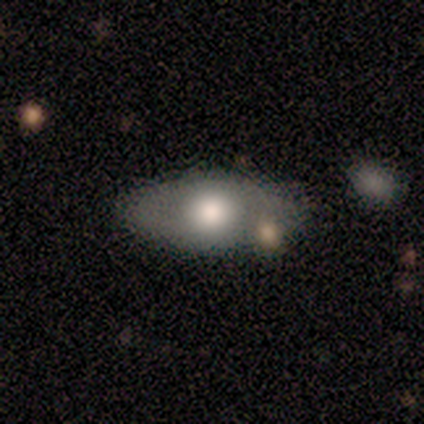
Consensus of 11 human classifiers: A smooth galaxy with no disk features (82%) that is in between round and cigar-shaped (100%). Merging: none (64%).